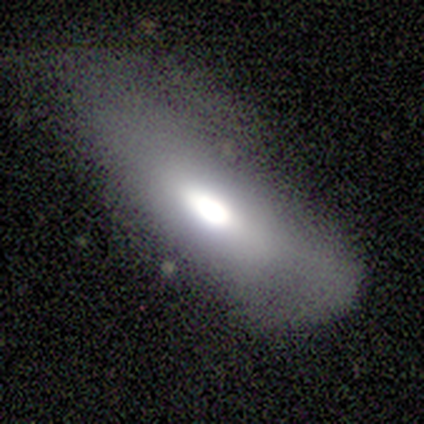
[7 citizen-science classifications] Morphology: type=featured or disk (71%); edge-on=no (60%); bar=no (67%); spiral arms=no (67%); bulge=moderate (67%); merging=none (43%, tied with minor disturbance).